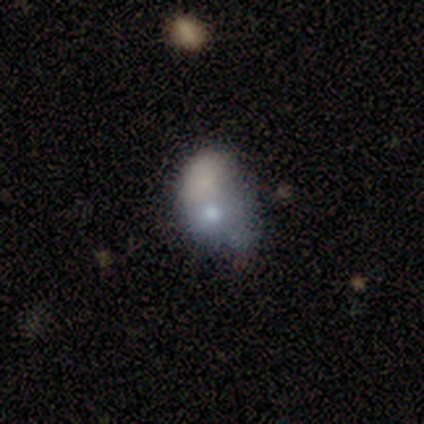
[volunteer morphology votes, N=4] Smooth or featured? smooth (50%, tied with featured or disk)
How rounded? round (50%, tied with in between)
Merging? merger (50%)